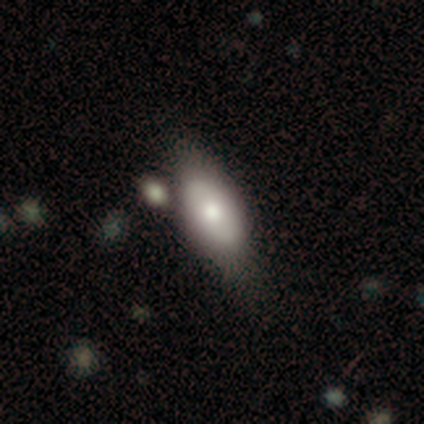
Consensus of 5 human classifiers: Q: Smooth or featured?
A: star or artifact (60%); runner-up: smooth (40%)